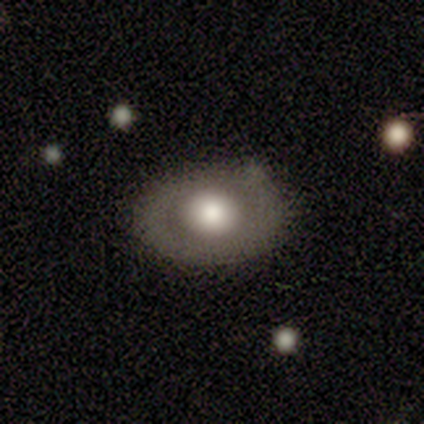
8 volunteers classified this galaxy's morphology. Q: Smooth or featured?
A: smooth (62%); runner-up: featured or disk (25%)
Q: How rounded?
A: in between (60%); runner-up: round (40%)
Q: Merging?
A: none (86%); runner-up: minor disturbance (14%)